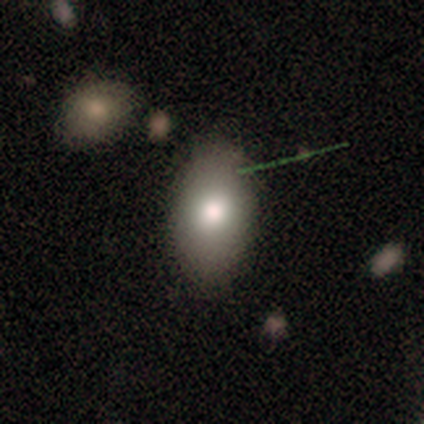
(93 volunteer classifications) A smooth galaxy with no disk features (76%) that is in between round and cigar-shaped (90%).

Vote fractions:
- Smooth or featured? smooth: 76% / featured or disk: 13% / star or artifact: 11%
- How rounded? in between: 90% / round: 8% / cigar-shaped: 1%
- Merging? none: 77% / minor disturbance: 17% / major disturbance: 5% / merger: 1%